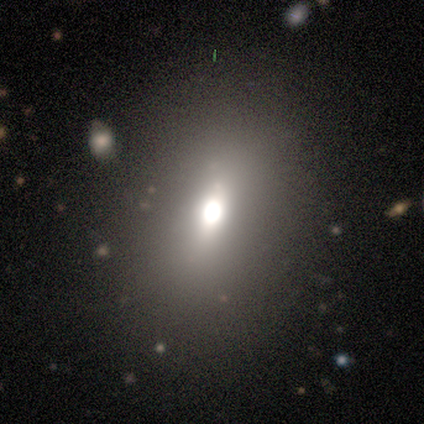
smooth 51%, star or artifact 33%, featured or disk 15%. Down the decision tree: how rounded — in between (70%); merging — none (77%).